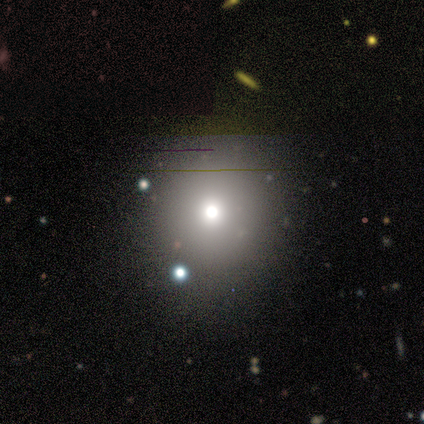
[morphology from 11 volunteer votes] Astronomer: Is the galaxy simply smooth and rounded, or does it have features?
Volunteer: smooth — 64%.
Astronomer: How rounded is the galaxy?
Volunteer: round — 86%.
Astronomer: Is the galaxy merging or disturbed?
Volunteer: none — 89%.